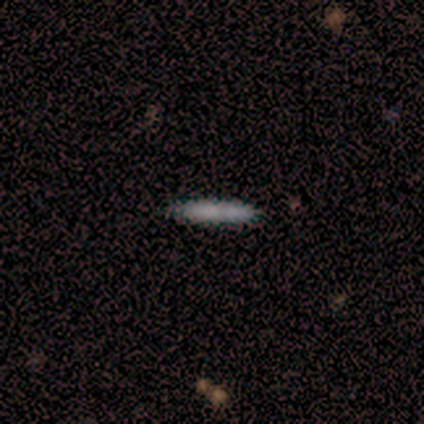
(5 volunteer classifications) A smooth galaxy with no disk features (80%) that is cigar-shaped (100%).

Vote fractions:
- Smooth or featured? smooth: 80% / featured or disk: 20% / star or artifact: 0%
- How rounded? cigar-shaped: 100% / round: 0% / in between: 0%
- Merging? none: 80% / minor disturbance: 20% / major disturbance: 0% / merger: 0%